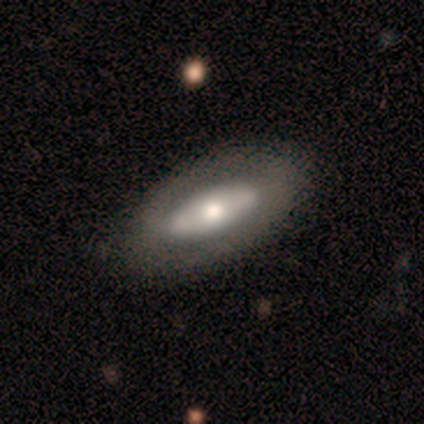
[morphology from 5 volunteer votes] smooth_or_featured: featured or disk (p=0.60) [alt: smooth p=0.40]
disk_edge_on: no (p=1.00)
bar: no (p=1.00)
has_spiral_arms: yes (p=0.67) [alt: no p=0.33]
spiral_winding: tight (p=0.50) [tied with: medium p=0.50]
spiral_arm_count: 2 (p=1.00)
bulge_size: moderate (p=0.67) [alt: large p=0.33]
merging: none (p=0.80) [alt: minor disturbance p=0.20]